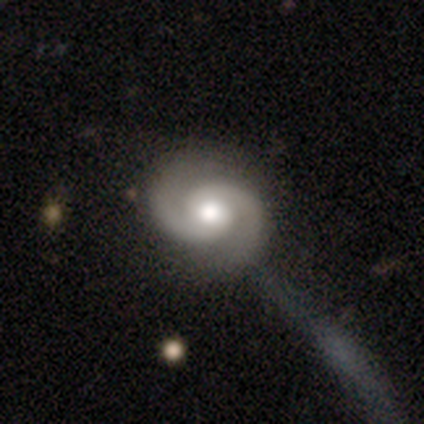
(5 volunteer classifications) Smooth or featured? featured or disk (100%)
Edge-on disk? no (100%)
Bar? no (80%)
Spiral arms? yes (100%)
Spiral winding? tight (60%)
Spiral arm count? 2 (100%)
Bulge size? moderate (60%)
Merging? none (80%)